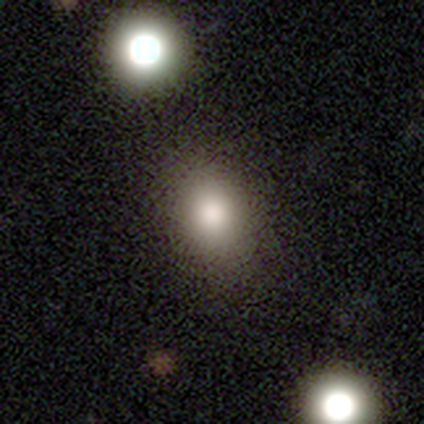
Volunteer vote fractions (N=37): Volunteers were most divided on "how rounded": round: 52%, in between: 48%, cigar-shaped: 0%. More confident: smooth or featured — smooth (89%); merging — none (66%).